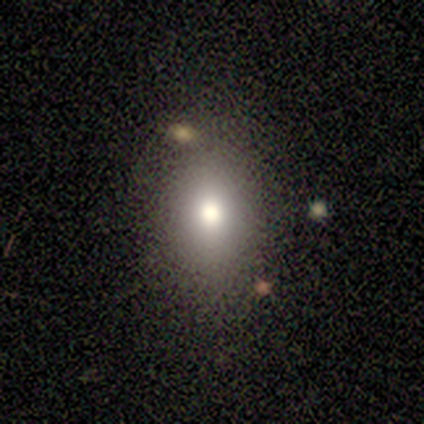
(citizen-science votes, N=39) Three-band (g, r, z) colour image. It shows a smooth galaxy with no disk features (67%) that is in between round and cigar-shaped (73%). Merging: none (72%).